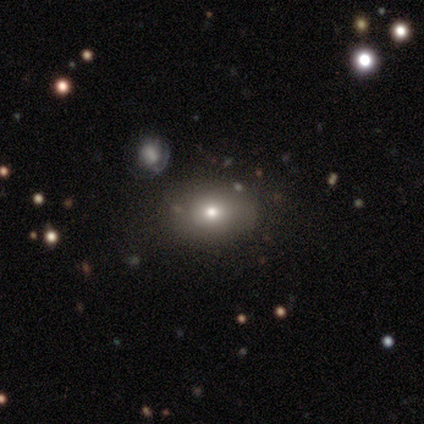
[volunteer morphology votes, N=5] A smooth galaxy with no disk features (60%) that is in between round and cigar-shaped (100%). Merging: none (40%, tied with merger).